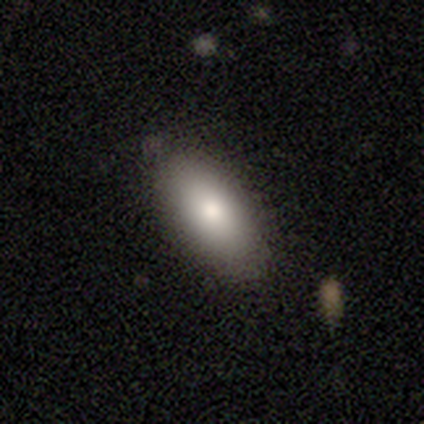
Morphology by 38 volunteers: smooth 82%, featured or disk 13%, star or artifact 5%. Down the decision tree: how rounded — in between (77%); merging — none (78%).